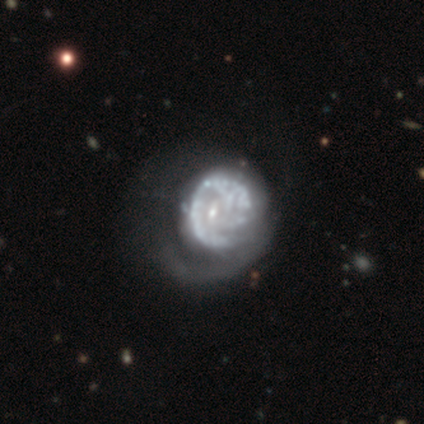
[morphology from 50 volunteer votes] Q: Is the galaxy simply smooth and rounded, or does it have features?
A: featured or disk — 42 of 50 (84%).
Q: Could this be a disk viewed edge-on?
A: no — 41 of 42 (98%).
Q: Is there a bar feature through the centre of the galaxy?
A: no — 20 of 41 (49%).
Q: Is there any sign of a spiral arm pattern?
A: yes — 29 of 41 (71%).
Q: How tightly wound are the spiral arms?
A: tight — 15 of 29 (52%).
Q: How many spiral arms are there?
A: can't tell — 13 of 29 (45%).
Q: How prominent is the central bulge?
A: small — 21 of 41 (51%).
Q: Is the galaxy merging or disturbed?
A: major disturbance — 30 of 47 (64%).